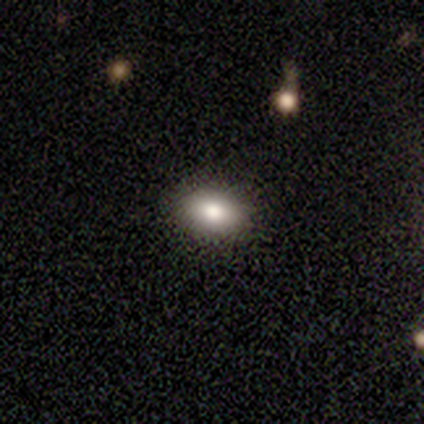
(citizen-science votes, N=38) This is clearly a smooth galaxy (87%). How rounded: clearly in between (82%). Merging: clearly none (94%).